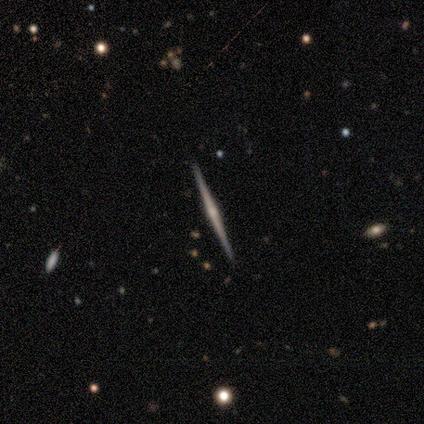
This is clearly a featured or disk galaxy (100%). It is clearly viewed edge-on (100%). Edge-on bulge: likely rounded (75%). Merging: clearly none (100%).